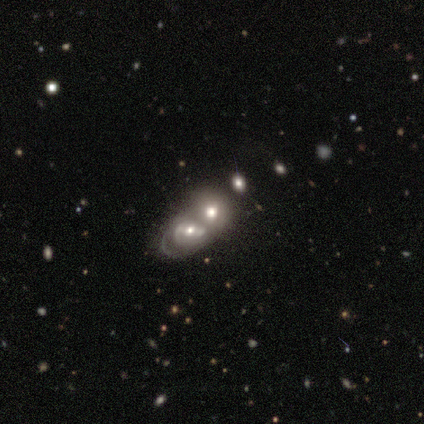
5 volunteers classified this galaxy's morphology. Smooth or featured? 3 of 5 (60%) said featured or disk. Edge-on disk? 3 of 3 (100%) said no. Bar? 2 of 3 (67%) said no. Spiral arms? 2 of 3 (67%) said no. Bulge size? 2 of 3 (67%) said large. Merging? 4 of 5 (80%) said merger.